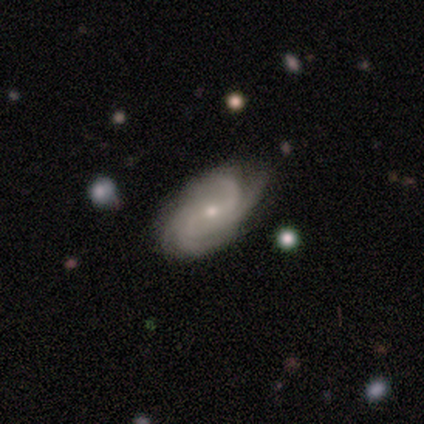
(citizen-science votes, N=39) featured or disk 95%, star or artifact 5%, smooth 0%. Down the decision tree: edge-on disk — no (97%); bar — weak (56%); spiral arms — yes (94%); spiral arm count — 4 (56%); spiral winding — medium (56%); bulge size — small (58%); merging — none (32%).